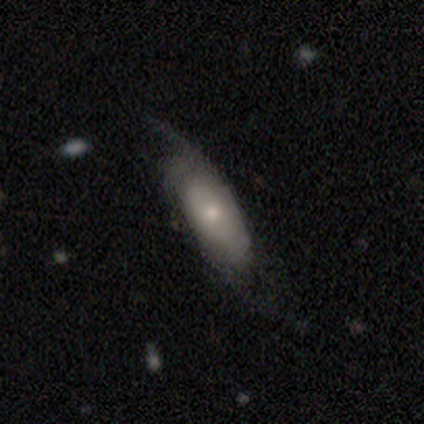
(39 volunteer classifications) Overall: smooth (56%; featured or disk 38%). How rounded: in between (73%). Merging: none (49%; minor disturbance 30%).